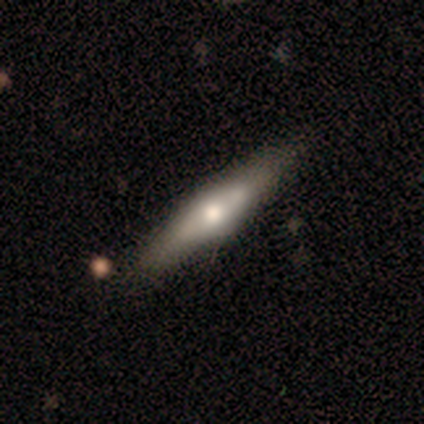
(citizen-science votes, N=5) A featured or disk galaxy (100%) viewed edge-on (100%) with a rounded central bulge (100%). Merging: none (100%).